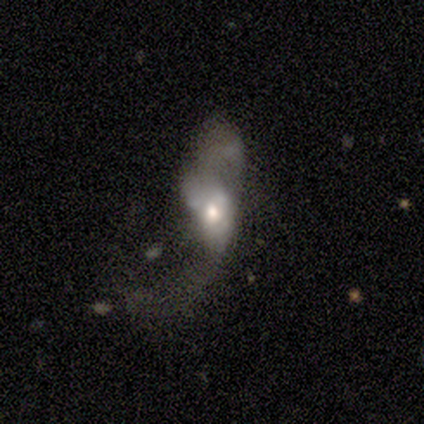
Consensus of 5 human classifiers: Smooth or featured? featured or disk (80%)
Edge-on disk? no (75%)
Bar? no (100%)
Spiral arms? no (100%)
Bulge size? moderate (67%)
Merging? major disturbance (75%)